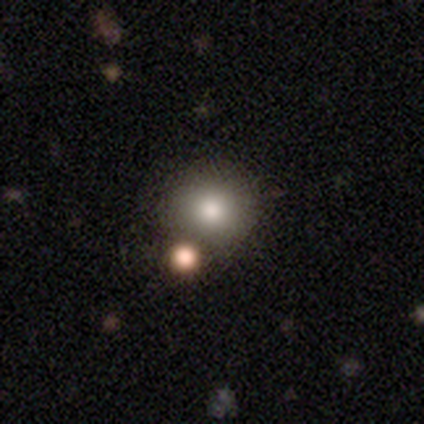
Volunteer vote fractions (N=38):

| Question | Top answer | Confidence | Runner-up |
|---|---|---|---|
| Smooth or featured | smooth | 79% | featured or disk (16%) |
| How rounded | round | 90% | in between (10%) |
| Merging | none | 64% | merger (17%) |